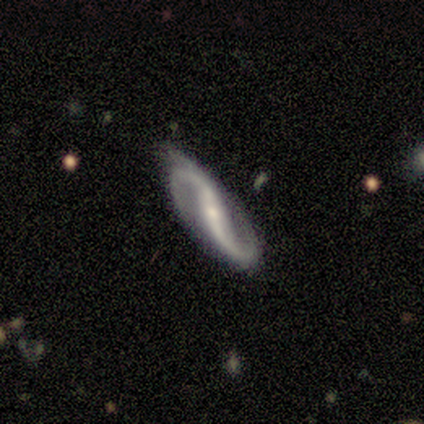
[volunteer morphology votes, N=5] Smooth or featured? 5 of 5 (100%) said featured or disk. Edge-on disk? 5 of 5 (100%) said no. Bar? 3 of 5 (60%) said strong. Spiral arms? 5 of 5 (100%) said yes. Spiral winding? 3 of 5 (60%) said medium. Spiral arm count? 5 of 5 (100%) said 2. Bulge size? 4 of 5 (80%) said small. Merging? 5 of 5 (100%) said none.